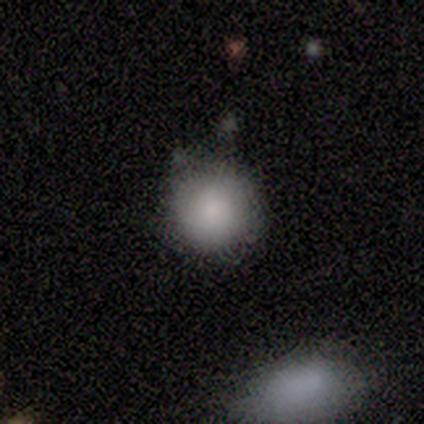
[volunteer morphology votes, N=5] Volunteers were most divided on "how rounded" (2-way tie): round: 50%, in between: 50%, cigar-shaped: 0%. More confident: smooth or featured — smooth (80%); merging — none (80%).